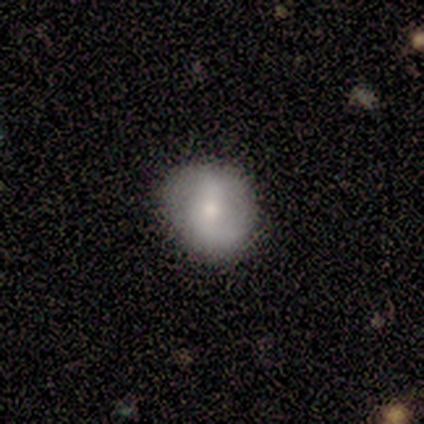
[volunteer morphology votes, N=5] Smooth or featured?
  - featured or disk: 60% *
  - smooth: 40%
  - star or artifact: 0%
Edge-on disk?
  - no: 100% *
  - yes: 0%
Bar?
  - weak: 67% *
  - strong: 33%
  - no: 0%
Spiral arms?
  - yes: 100% *
  - no: 0%
Spiral winding?
  - medium: 67% *
  - loose: 33%
  - tight: 0%
Spiral arm count?
  - 2: 100% *
  - 1: 0%
  - 3: 0%
  - 4: 0%
  - more than 4: 0%
  - can't tell: 0%
Bulge size?
  - small: 67% *
  - moderate: 33%
  - dominant: 0%
  - large: 0%
  - none: 0%
Merging?
  - none: 80% *
  - minor disturbance: 20%
  - major disturbance: 0%
  - merger: 0%